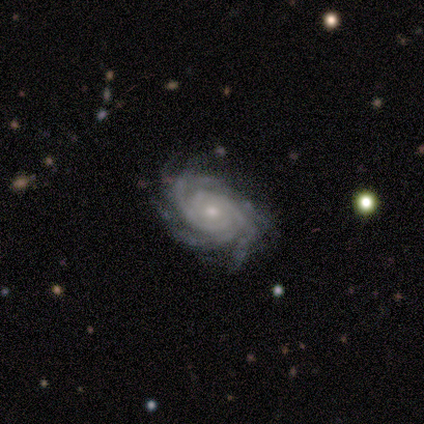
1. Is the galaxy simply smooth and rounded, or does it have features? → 80% featured or disk, 20% smooth, 0% star or artifact.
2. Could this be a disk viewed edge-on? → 100% no, 0% yes.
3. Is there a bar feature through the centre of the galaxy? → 75% no, 25% strong, 0% weak.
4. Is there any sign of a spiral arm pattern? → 100% yes, 0% no.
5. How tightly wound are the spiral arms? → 75% tight, 25% medium, 0% loose.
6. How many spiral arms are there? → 50% 3, 25% 4, 25% can't tell, 0% 1, 0% 2, 0% more than 4.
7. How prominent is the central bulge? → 100% small, 0% dominant, 0% large, 0% moderate, 0% none.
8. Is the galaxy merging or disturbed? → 80% none, 20% minor disturbance, 0% major disturbance, 0% merger.